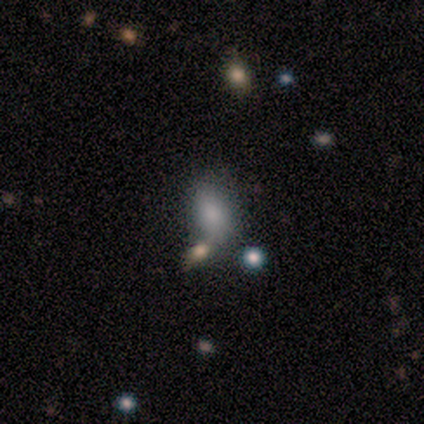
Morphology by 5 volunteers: Overall: smooth (100%). How rounded: in between (100%). Merging: none (60%; minor disturbance 20%).